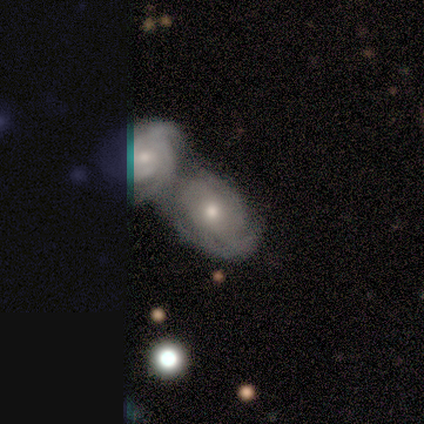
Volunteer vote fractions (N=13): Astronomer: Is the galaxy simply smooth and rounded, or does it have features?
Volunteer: featured or disk — 62%.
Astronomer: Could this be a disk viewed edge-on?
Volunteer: no — 100%.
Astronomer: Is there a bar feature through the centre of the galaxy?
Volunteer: no — 100%.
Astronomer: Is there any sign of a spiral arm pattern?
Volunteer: yes — 100%.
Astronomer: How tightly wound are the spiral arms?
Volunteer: tight — 38%, tied with medium at 38%.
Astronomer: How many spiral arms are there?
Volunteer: can't tell — 62%.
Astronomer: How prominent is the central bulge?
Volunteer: moderate — 75%.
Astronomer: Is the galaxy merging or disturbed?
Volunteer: merger — 83%.